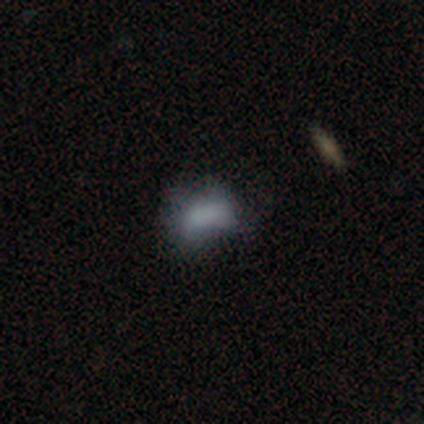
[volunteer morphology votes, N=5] Smooth or featured? smooth (80%)
How rounded? in between (100%)
Merging? minor disturbance (60%)